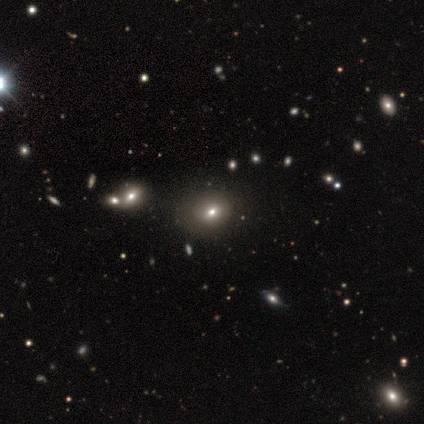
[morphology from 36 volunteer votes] This appears to be a smooth galaxy with no disk features (58%) that is round (62%). Merging: none (88%).